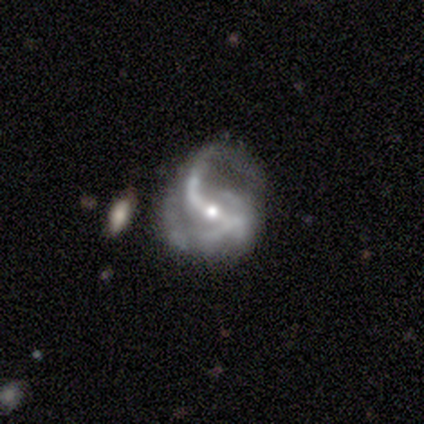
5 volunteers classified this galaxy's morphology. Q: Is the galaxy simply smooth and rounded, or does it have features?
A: featured or disk — 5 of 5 (100%).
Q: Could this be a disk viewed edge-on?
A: no — 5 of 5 (100%).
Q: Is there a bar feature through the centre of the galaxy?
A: no — 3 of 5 (60%).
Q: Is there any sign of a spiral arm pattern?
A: yes — 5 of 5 (100%).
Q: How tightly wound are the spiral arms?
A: loose — 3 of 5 (60%).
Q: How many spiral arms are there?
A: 2 — 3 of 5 (60%).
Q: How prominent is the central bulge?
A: small — 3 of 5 (60%).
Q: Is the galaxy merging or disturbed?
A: major disturbance — 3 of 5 (60%).